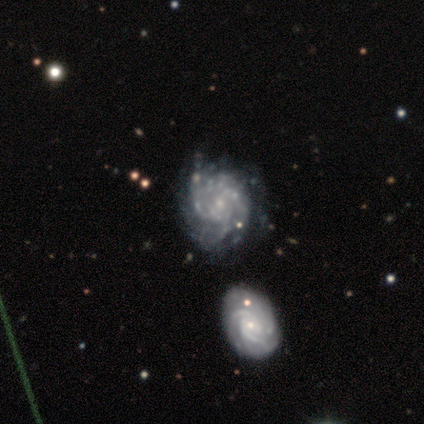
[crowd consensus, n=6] Overall: featured or disk (100%). Edge-on disk: no (100%). Bar: no (100%). Spiral arms: yes (100%). Spiral arm count: can't tell (83%). Spiral winding: tight (67%; loose 33%). Bulge size: small (83%). Merging: none (33%, tied with major disturbance).